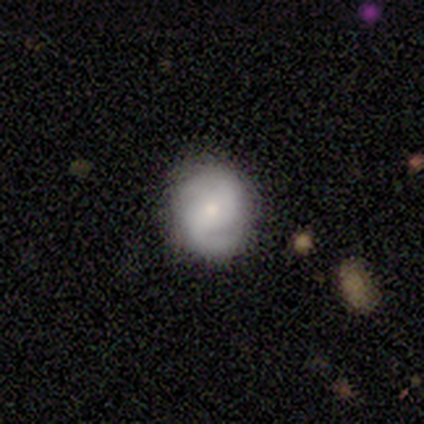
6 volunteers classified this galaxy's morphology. This is clearly a featured or disk galaxy (83%). It is clearly not viewed edge-on (100%). Bar: likely no (60%). Spiral arm pattern: clearly yes (100%). Spiral arm count: clearly 2 (100%). Spiral winding: likely tight (60%). Central bulge: clearly moderate (100%). Merging: clearly none (83%).